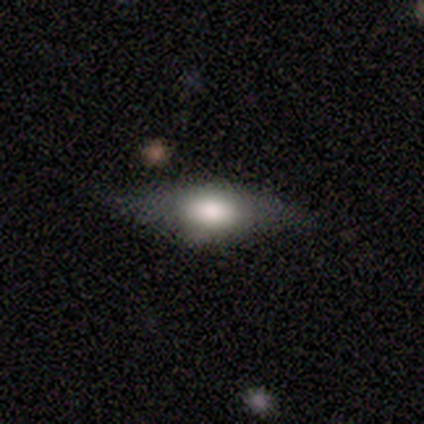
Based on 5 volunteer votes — smooth 40% (tied), featured or disk 40% (tied), star or artifact 20%. Down the decision tree: how rounded — cigar-shaped (100%); merging — none (100%).